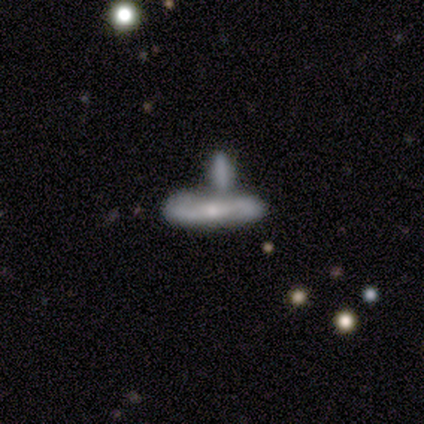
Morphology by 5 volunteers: Overall: featured or disk (60%; smooth 20%). Edge-on disk: yes (67%; no 33%). Edge-on bulge: boxy (50%, tied with rounded). Merging: minor disturbance (75%).